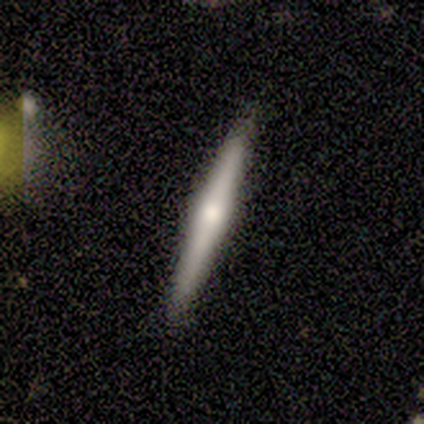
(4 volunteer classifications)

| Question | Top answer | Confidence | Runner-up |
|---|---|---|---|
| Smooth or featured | featured or disk | 50% | smooth (25%) |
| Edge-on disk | yes | 100% | — |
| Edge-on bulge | rounded | 100% | — |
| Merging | none | 100% | — |